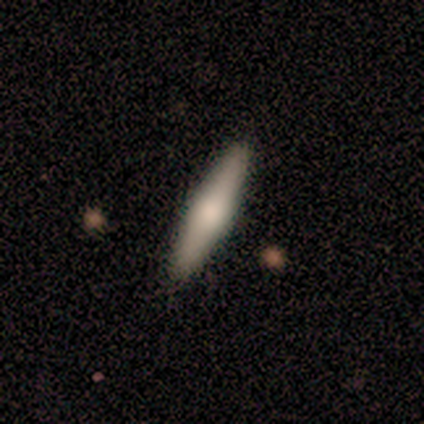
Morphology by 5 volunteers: Smooth or featured? 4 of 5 (80%) said featured or disk. Edge-on disk? 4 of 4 (100%) said yes. Edge-on bulge? 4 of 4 (100%) said rounded. Merging? 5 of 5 (100%) said none.